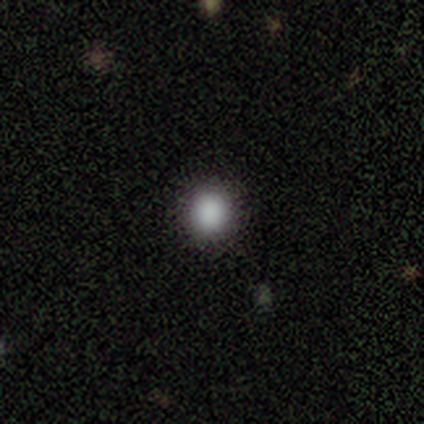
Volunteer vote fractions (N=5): smooth-or-featured: smooth: 100% | featured or disk: 0% | star or artifact: 0%
  how-rounded: round: 100% | in between: 0% | cigar-shaped: 0%
  merging: none: 100% | minor disturbance: 0% | major disturbance: 0% | merger: 0%